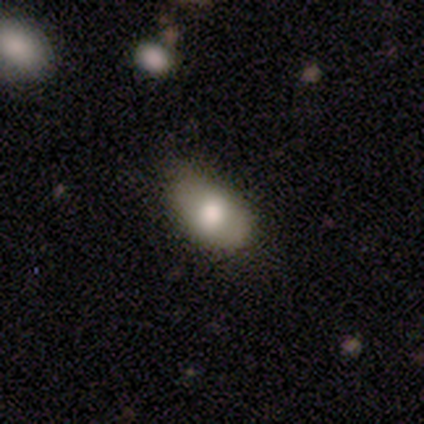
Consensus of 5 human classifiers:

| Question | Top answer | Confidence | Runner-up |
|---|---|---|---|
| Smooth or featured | smooth | 100% | — |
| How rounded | in between | 100% | — |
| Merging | minor disturbance | 60% | none (40%) |